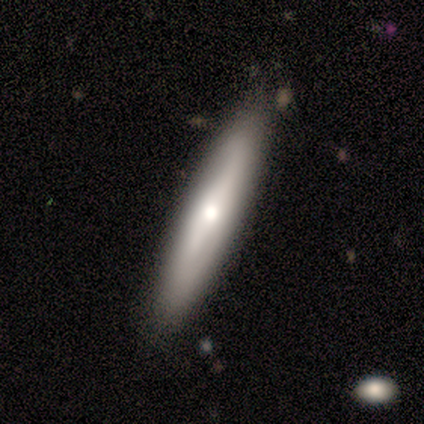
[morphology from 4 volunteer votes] Smooth or featured? smooth (50%, tied with featured or disk)
How rounded? cigar-shaped (100%)
Merging? none (50%, tied with minor disturbance)